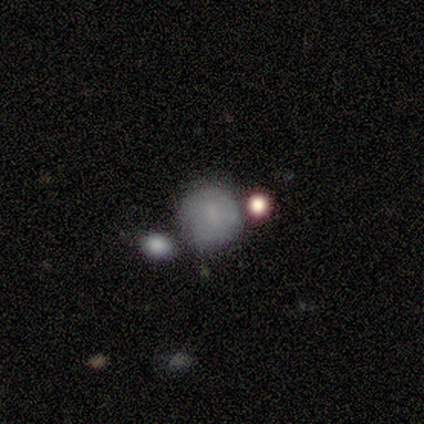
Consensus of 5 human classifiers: A smooth galaxy with no disk features (80%) that is round (100%). Merging: none (60%).